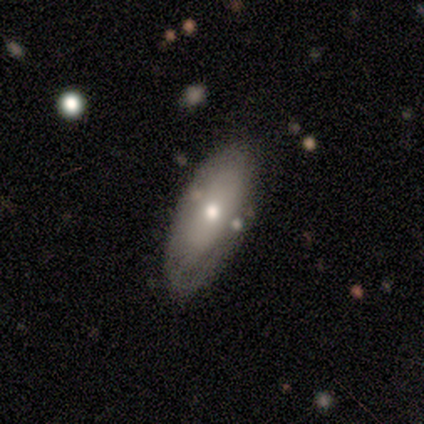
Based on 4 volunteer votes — smooth_or_featured: smooth (p=0.75) [alt: featured or disk p=0.25]
how_rounded: in between (p=1.00)
merging: none (p=0.50) [tied with: minor disturbance p=0.50]